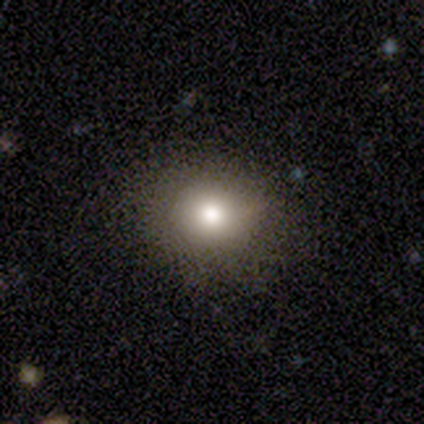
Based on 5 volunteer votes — A smooth galaxy with no disk features (100%) that is in between round and cigar-shaped (80%).

Vote fractions:
- Smooth or featured? smooth: 100% / featured or disk: 0% / star or artifact: 0%
- How rounded? in between: 80% / round: 20% / cigar-shaped: 0%
- Merging? none: 80% / minor disturbance: 20% / major disturbance: 0% / merger: 0%